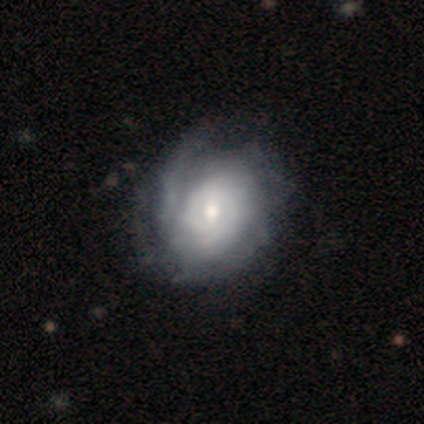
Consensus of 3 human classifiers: Smooth or featured? 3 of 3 (100%) said featured or disk. Edge-on disk? 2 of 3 (67%) said no. Bar? 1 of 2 (50%, tied with no) said strong. Spiral arms? 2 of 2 (100%) said yes. Spiral winding? 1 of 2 (50%, tied with medium) said tight. Spiral arm count? 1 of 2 (50%, tied with can't tell) said 2. Bulge size? 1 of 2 (50%, tied with small) said moderate. Merging? 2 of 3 (67%) said none.